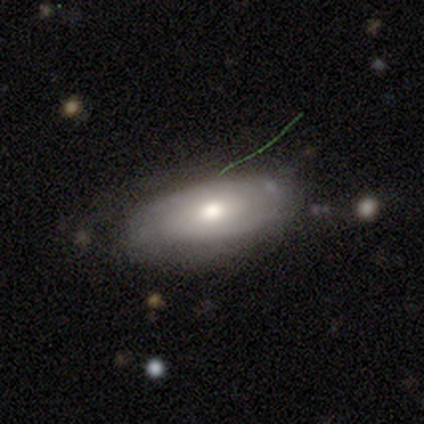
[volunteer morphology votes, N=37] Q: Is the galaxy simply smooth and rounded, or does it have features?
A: smooth — 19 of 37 (51%).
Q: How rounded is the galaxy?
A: in between — 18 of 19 (95%).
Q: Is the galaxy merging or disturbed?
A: none — 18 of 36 (50%).